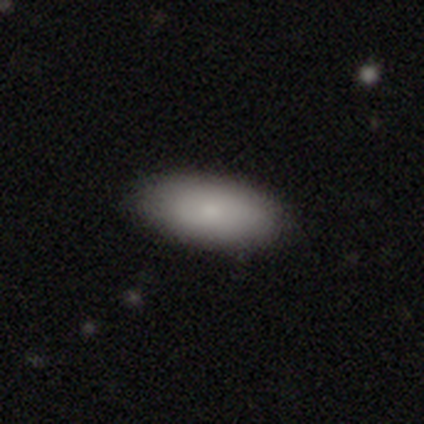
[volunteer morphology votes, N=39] This appears to be a smooth galaxy with no disk features (79%) that is in between round and cigar-shaped (97%). Merging: none (70%).